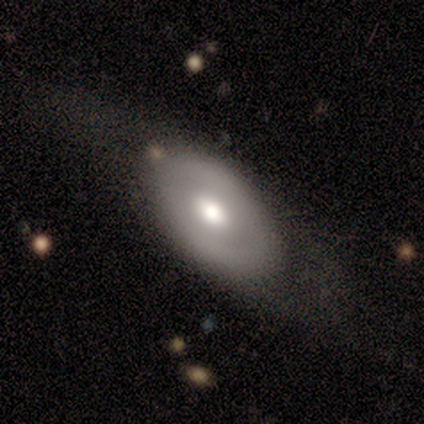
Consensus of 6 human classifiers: Smooth or featured? smooth (50%, tied with featured or disk)
How rounded? in between (67%)
Merging? none (83%)